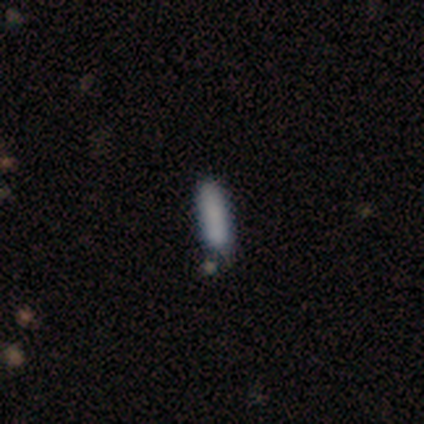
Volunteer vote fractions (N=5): A smooth galaxy with no disk features (100%) that is cigar-shaped (60%).

Vote fractions:
- Smooth or featured? smooth: 100% / featured or disk: 0% / star or artifact: 0%
- How rounded? cigar-shaped: 60% / in between: 40% / round: 0%
- Merging? none: 80% / merger: 20% / minor disturbance: 0% / major disturbance: 0%